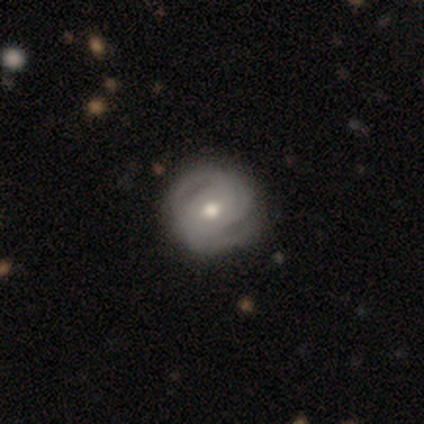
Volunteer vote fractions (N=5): featured or disk 80%, smooth 20%, star or artifact 0%. Down the decision tree: edge-on disk — no (100%); bar — no (75%); spiral arms — yes (100%); spiral arm count — 2 (50%, tied with 3); spiral winding — tight (50%, tied with loose); bulge size — moderate (100%); merging — none (80%).